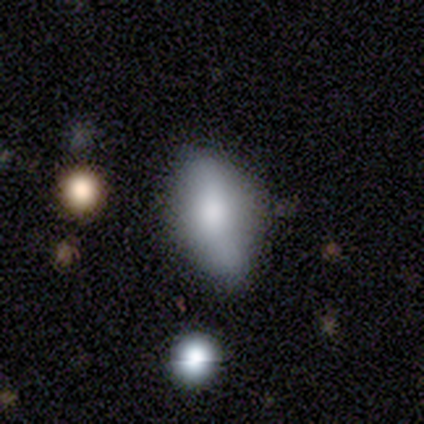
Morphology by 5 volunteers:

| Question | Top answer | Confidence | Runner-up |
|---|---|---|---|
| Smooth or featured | smooth | 60% | featured or disk (40%) |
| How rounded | in between | 67% | round (33%) |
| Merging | minor disturbance | 80% | none (20%) |